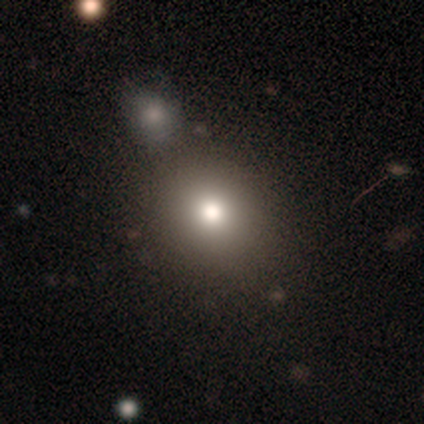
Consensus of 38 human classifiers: Smooth or featured? 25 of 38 (66%) said smooth. How rounded? 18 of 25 (72%) said round. Merging? 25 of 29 (86%) said none.